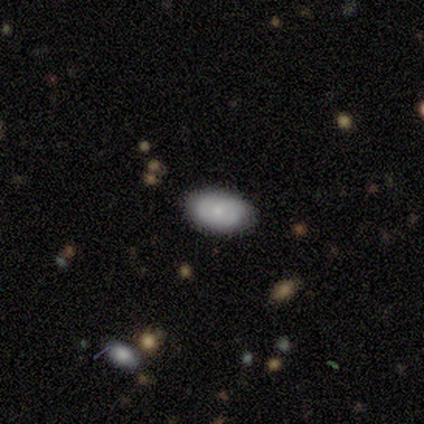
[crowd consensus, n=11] smooth-or-featured: smooth: 82% | featured or disk: 18% | star or artifact: 0%
  how-rounded: in between: 100% | round: 0% | cigar-shaped: 0%
  merging: none: 91% | minor disturbance: 9% | major disturbance: 0% | merger: 0%